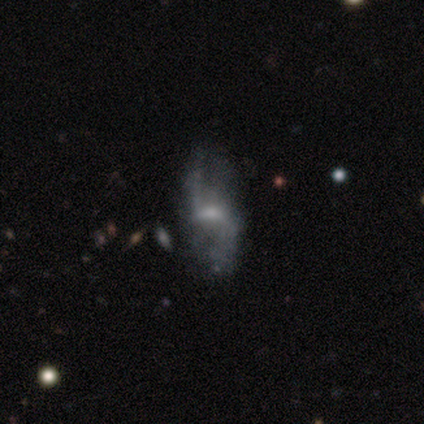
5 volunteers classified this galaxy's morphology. This appears to be a featured or disk galaxy (100%) with a weak bar (40%, tied with no), 2 (67%) loose (67%) spiral arms (60%) and a small central bulge (80%). Merging: minor disturbance (40%, tied with major disturbance).